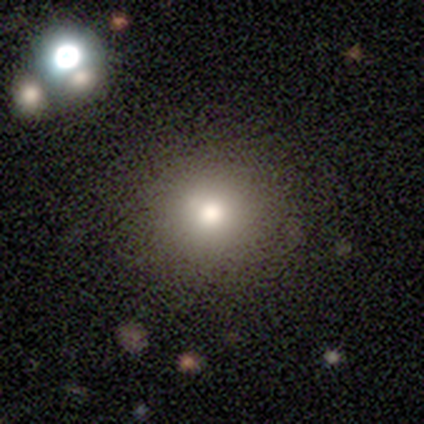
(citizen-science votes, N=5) A smooth galaxy with no disk features (80%) that is round (75%).

Vote fractions:
- Smooth or featured? smooth: 80% / star or artifact: 20% / featured or disk: 0%
- How rounded? round: 75% / in between: 25% / cigar-shaped: 0%
- Merging? none: 75% / minor disturbance: 25% / major disturbance: 0% / merger: 0%